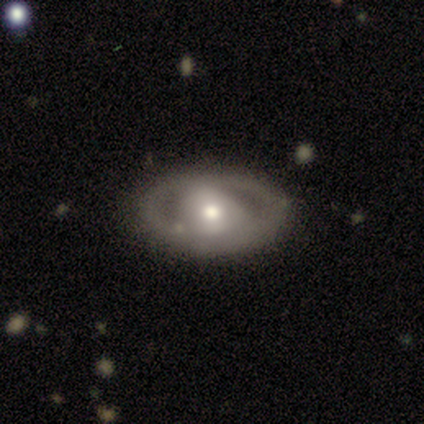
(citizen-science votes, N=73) smooth-or-featured: featured or disk: 73% | smooth: 22% | star or artifact: 5%
  disk-edge-on: no: 94% | yes: 6%
    bar: no: 56% | weak: 28% | strong: 16%
    has-spiral-arms: no: 64% | yes: 36%
    bulge-size: moderate: 62% | large: 24% | small: 14% | dominant: 0% | none: 0%
  merging: none: 78% | minor disturbance: 14% | merger: 4% | major disturbance: 3%